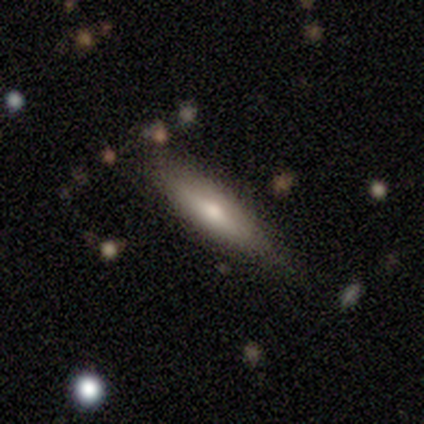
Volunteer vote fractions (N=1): Morphology: type=featured or disk (100%); edge-on=yes (100%); edge-on bulge=rounded (100%); merging=none (100%).